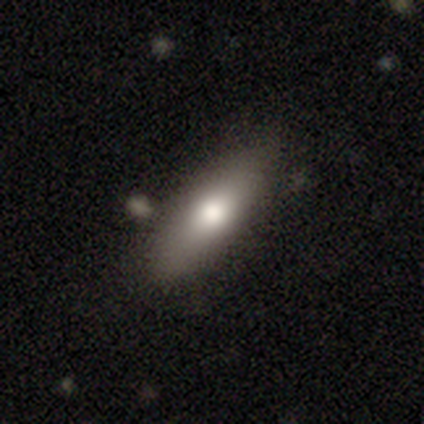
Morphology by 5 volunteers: Smooth or featured: smooth — 60% (featured or disk — 20%)
How rounded: cigar-shaped — 67% (in between — 33%)
Merging: none — 100%